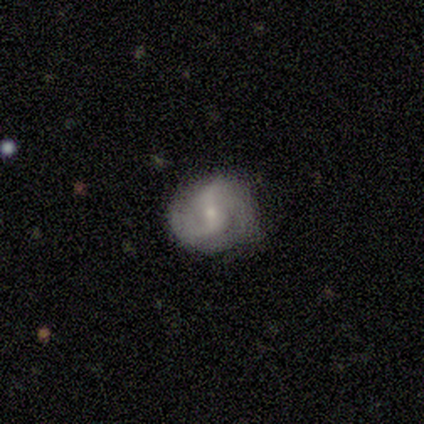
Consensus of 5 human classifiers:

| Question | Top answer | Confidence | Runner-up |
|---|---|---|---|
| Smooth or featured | featured or disk | 80% | smooth (20%) |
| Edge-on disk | no | 100% | — |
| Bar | no | 50% | strong (25%) |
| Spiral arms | yes | 75% | no (25%) |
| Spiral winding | loose | 67% | medium (33%) |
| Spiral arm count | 2 | 67% | 3 (33%) |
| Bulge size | moderate | 50% | tied: small (50%) |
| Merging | none | 80% | minor disturbance (20%) |